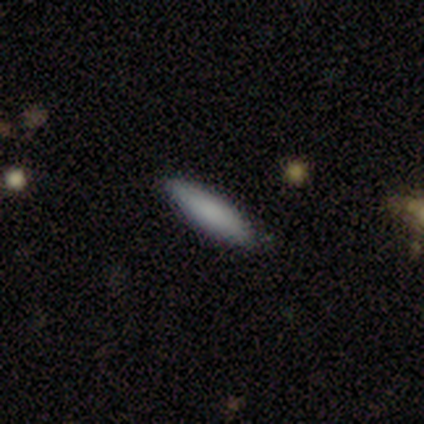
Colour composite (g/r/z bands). It shows a featured or disk galaxy (60%) with a weak bar (50%, tied with no), no spiral arms (100%) and a small central bulge (50%, tied with none). Merging: none (80%).